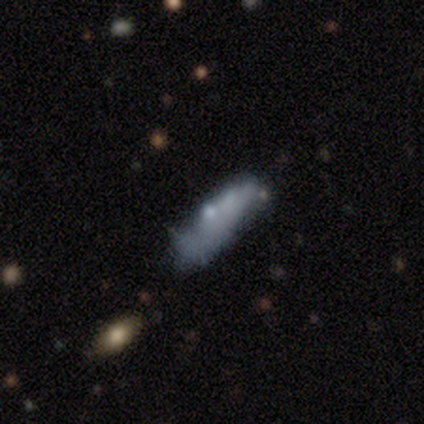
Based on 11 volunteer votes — A featured or disk galaxy (45%) viewed edge-on (60%) with a rounded central bulge (67%). Merging: none (56%).